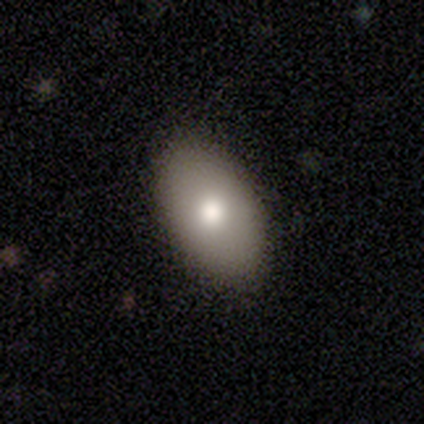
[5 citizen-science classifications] Volunteers were most divided on "how rounded": in between: 60%, round: 40%, cigar-shaped: 0%. More confident: smooth or featured — smooth (100%); merging — none (80%).